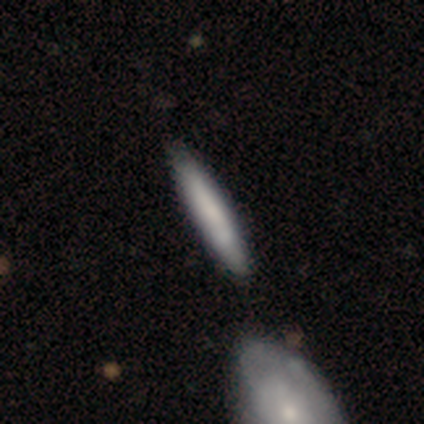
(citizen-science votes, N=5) Morphology: type=smooth (60%); roundness=cigar-shaped (100%); merging=none (100%).